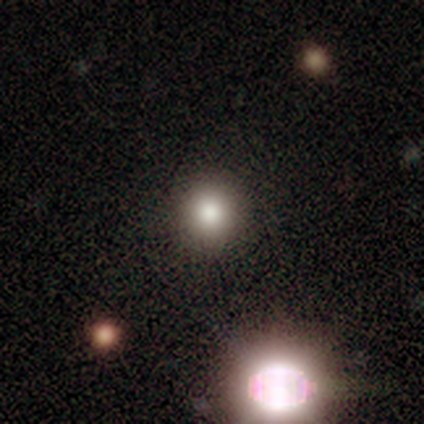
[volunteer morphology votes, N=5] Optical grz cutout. It shows a smooth galaxy with no disk features (100%) that is round (100%). Merging: none (100%).